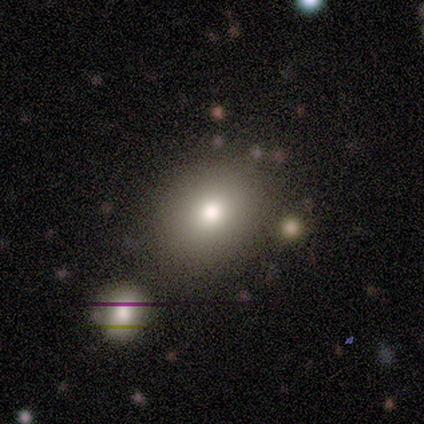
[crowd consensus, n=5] Smooth or featured? 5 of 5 (100%) said smooth. How rounded? 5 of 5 (100%) said round. Merging? 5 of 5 (100%) said none.